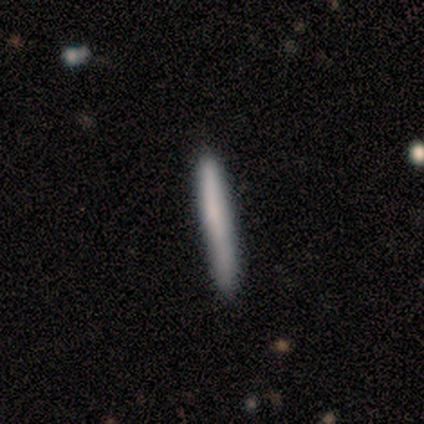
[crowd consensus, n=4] Smooth or featured?
  - smooth: 100% *
  - featured or disk: 0%
  - star or artifact: 0%
How rounded?
  - cigar-shaped: 100% *
  - round: 0%
  - in between: 0%
Merging?
  - none: 100% *
  - minor disturbance: 0%
  - major disturbance: 0%
  - merger: 0%